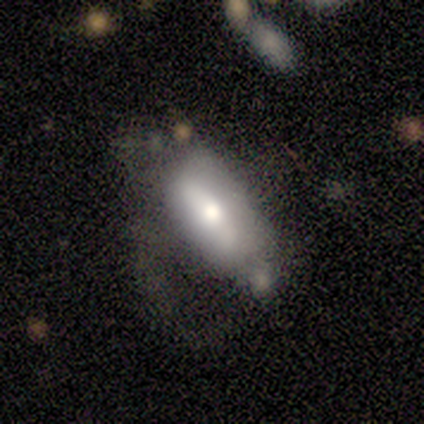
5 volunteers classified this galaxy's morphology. smooth_or_featured: featured or disk (p=0.60) [alt: smooth p=0.40]
disk_edge_on: no (p=0.67) [alt: yes p=0.33]
bar: strong (p=0.50) [tied with: weak p=0.50]
has_spiral_arms: no (p=1.00)
bulge_size: large (p=0.50) [tied with: moderate p=0.50]
merging: major disturbance (p=0.40) [alt: none p=0.20]